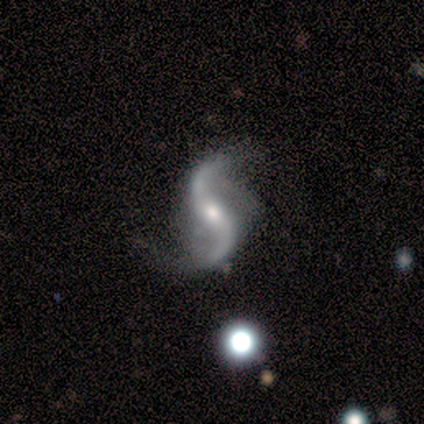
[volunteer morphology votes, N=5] This is clearly a featured or disk galaxy (100%). It is clearly not viewed edge-on (100%). Bar: clearly no (80%). Spiral arm pattern: clearly yes (100%). Spiral arm count: clearly 2 (80%). Spiral winding: clearly loose (100%). Central bulge: clearly small (80%). Merging: likely none (60%).